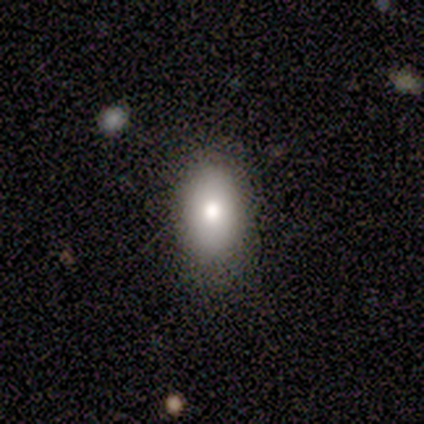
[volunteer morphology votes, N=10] smooth-or-featured: smooth: 80% | featured or disk: 20% | star or artifact: 0%
  how-rounded: in between: 100% | round: 0% | cigar-shaped: 0%
  merging: none: 80% | minor disturbance: 20% | major disturbance: 0% | merger: 0%